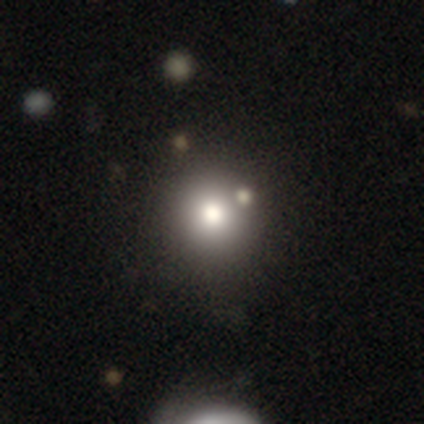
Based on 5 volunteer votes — smooth 80%, star or artifact 20%, featured or disk 0%. Down the decision tree: how rounded — round (75%); merging — none (100%).